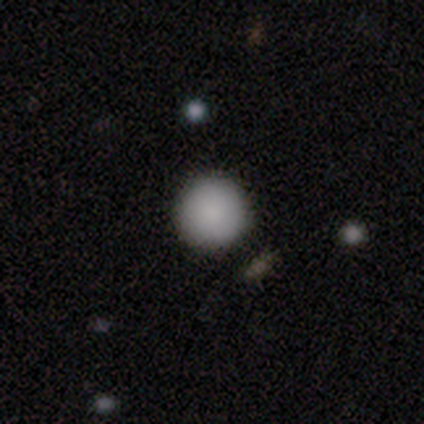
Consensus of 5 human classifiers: Consensus on every question: smooth or featured — smooth (100%); how rounded — round (100%); merging — none (100%).